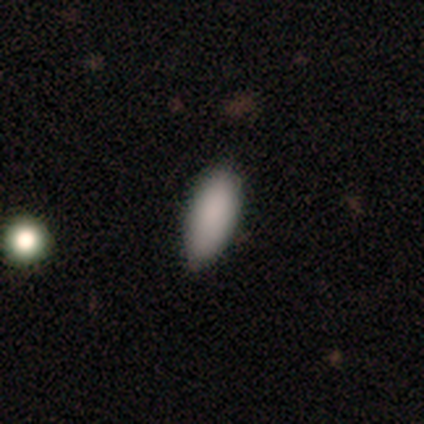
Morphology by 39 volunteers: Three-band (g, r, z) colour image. It shows a smooth galaxy with no disk features (90%) that is in between round and cigar-shaped (83%). Merging: none (76%).